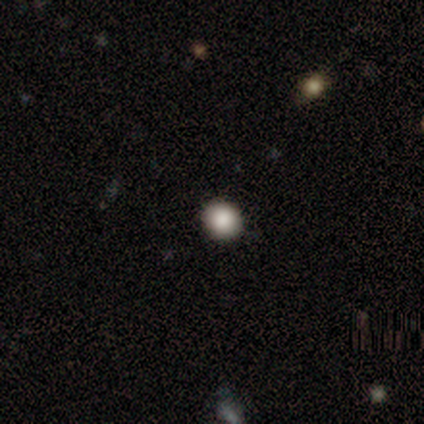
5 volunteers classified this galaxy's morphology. A smooth galaxy with no disk features (80%) that is round (100%). Merging: none (100%).